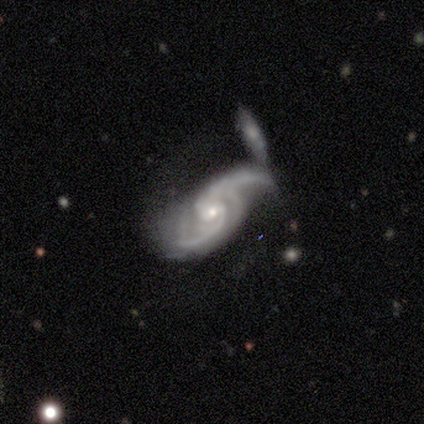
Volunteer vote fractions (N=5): smooth-or-featured: featured or disk: 100% | smooth: 0% | star or artifact: 0%
  disk-edge-on: no: 100% | yes: 0%
    bar: no: 60% | strong: 20% | weak: 20%
    has-spiral-arms: yes: 100% | no: 0%
      spiral-winding: loose: 80% | medium: 20% | tight: 0%
      spiral-arm-count: 2: 80% | can't tell: 20% | 1: 0% | 3: 0% | 4: 0% | more than 4: 0%
    bulge-size: small: 60% | dominant: 20% | moderate: 20% | large: 0% | none: 0%
  merging: none: 40% (tied) | merger: 40% (tied) | minor disturbance: 20% | major disturbance: 0%